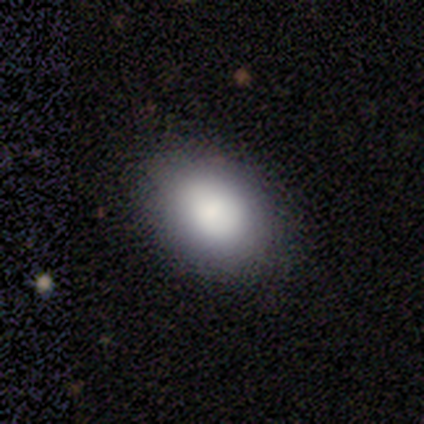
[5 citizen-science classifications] Volunteers were most divided on "smooth or featured": smooth: 60%, featured or disk: 20%, star or artifact: 20%. More confident: how rounded — in between (100%); merging — none (100%).